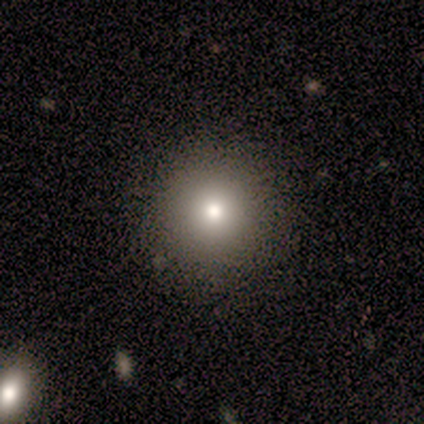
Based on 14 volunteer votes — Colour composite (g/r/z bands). It shows a smooth galaxy with no disk features (71%) that is round (100%). Merging: none (100%).